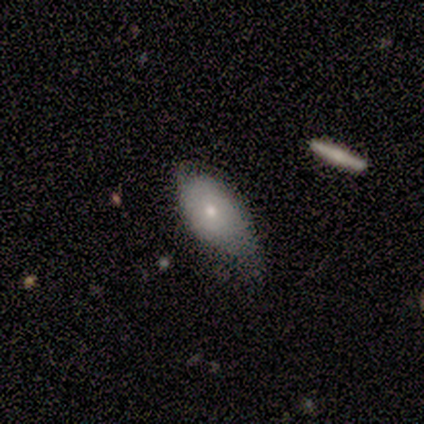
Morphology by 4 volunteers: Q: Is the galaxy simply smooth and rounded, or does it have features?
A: featured or disk — 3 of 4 (75%).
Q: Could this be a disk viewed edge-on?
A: no — 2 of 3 (67%).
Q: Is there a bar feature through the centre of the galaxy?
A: no — 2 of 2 (100%).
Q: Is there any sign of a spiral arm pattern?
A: no — 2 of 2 (100%).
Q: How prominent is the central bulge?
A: moderate — 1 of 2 (50%, tied with small).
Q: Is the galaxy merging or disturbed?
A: minor disturbance — 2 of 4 (50%, tied with major disturbance).